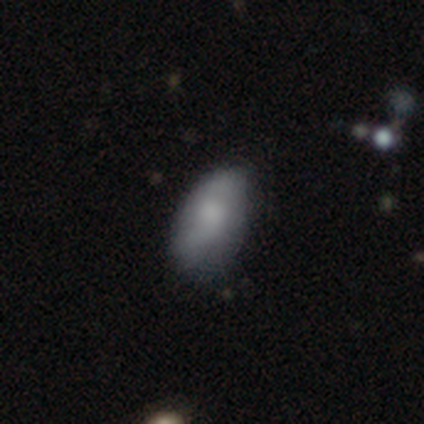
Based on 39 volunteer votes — This appears to be a smooth galaxy with no disk features (62%) that is in between round and cigar-shaped (96%). Merging: none (52%).